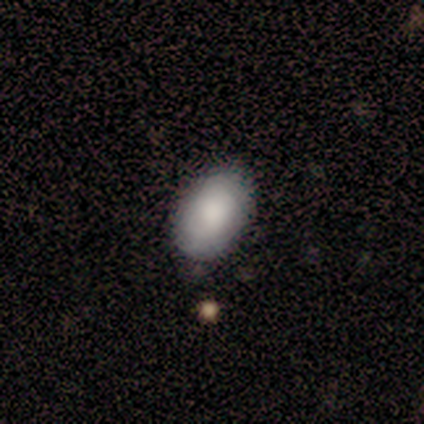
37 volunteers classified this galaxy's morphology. smooth_or_featured: smooth (p=0.84) [alt: featured or disk p=0.14]
how_rounded: in between (p=0.97) [alt: round p=0.03]
merging: none (p=0.83) [alt: minor disturbance p=0.11]